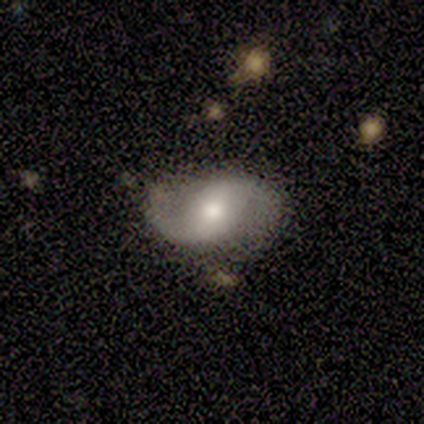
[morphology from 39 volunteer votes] Smooth or featured: featured or disk — 85% (smooth — 13%)
Edge-on disk: no — 100%
Bar: weak — 48% (no — 36%)
Spiral arms: yes — 97% (no — 3%)
Spiral winding: loose — 56% (medium — 38%)
Spiral arm count: 2 — 97% (1 — 3%)
Bulge size: moderate — 70% (small — 18%)
Merging: none — 76% (minor disturbance — 18%)